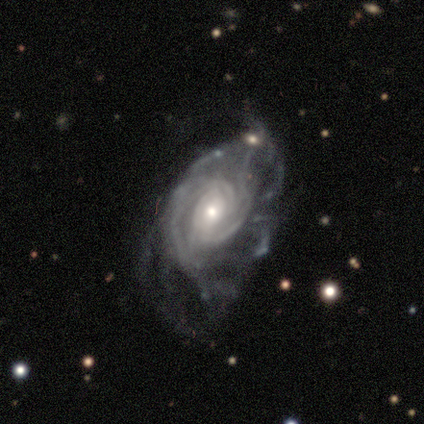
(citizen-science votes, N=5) Q: Smooth or featured?
A: featured or disk (100%)
Q: Edge-on disk?
A: no (100%)
Q: Bar?
A: weak (40%); tied with: no (40%)
Q: Spiral arms?
A: yes (100%)
Q: Spiral winding?
A: medium (60%); runner-up: tight (20%)
Q: Spiral arm count?
A: can't tell (40%); runner-up: 2 (20%)
Q: Bulge size?
A: small (60%); runner-up: moderate (40%)
Q: Merging?
A: major disturbance (60%); runner-up: none (20%)